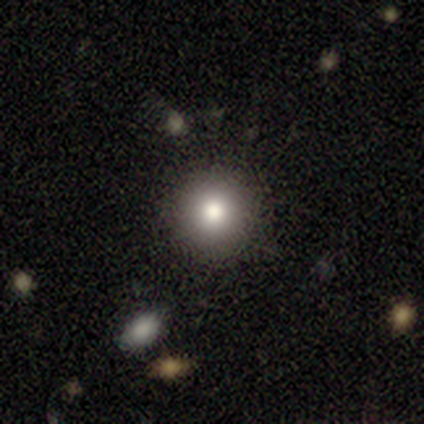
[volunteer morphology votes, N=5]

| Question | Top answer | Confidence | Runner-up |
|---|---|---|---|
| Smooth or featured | smooth | 100% | — |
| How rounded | round | 80% | cigar-shaped (20%) |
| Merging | none | 60% | minor disturbance (20%) |